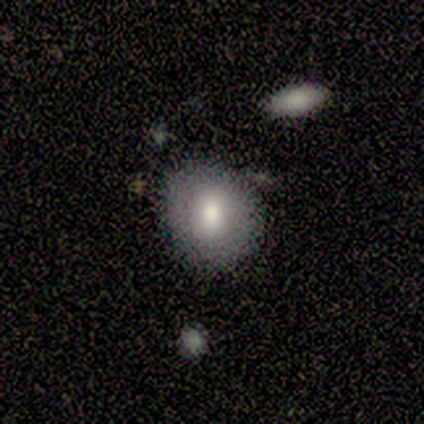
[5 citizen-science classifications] A smooth galaxy with no disk features (100%) that is round (60%).

Vote fractions:
- Smooth or featured? smooth: 100% / featured or disk: 0% / star or artifact: 0%
- How rounded? round: 60% / in between: 40% / cigar-shaped: 0%
- Merging? none: 60% / minor disturbance: 40% / major disturbance: 0% / merger: 0%